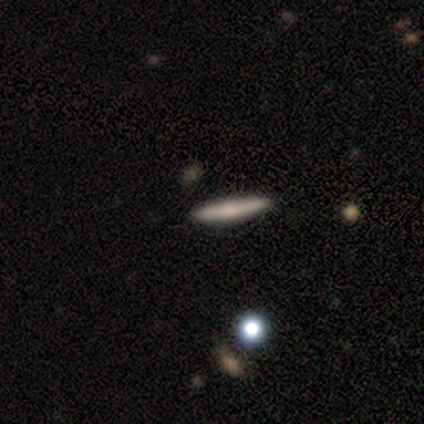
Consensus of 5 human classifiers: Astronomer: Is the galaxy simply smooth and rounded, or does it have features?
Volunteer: featured or disk — 60%.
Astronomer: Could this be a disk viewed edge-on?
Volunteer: yes — 100%.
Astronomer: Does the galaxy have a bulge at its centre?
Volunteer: rounded — 67%.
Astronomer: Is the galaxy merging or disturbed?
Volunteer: none — 100%.